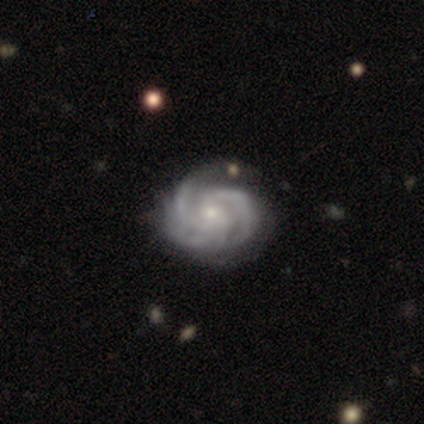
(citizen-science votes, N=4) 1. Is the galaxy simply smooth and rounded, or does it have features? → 50% featured or disk (tied), 50% star or artifact (tied), 0% smooth.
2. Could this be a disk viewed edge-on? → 100% no, 0% yes.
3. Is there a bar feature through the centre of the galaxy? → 50% weak (tied), 50% no (tied), 0% strong.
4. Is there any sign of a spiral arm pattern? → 100% yes, 0% no.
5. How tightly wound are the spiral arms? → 100% tight, 0% medium, 0% loose.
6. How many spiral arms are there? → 100% 2, 0% 1, 0% 3, 0% 4, 0% more than 4, 0% can't tell.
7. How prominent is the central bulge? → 100% small, 0% dominant, 0% large, 0% moderate, 0% none.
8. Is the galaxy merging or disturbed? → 100% none, 0% minor disturbance, 0% major disturbance, 0% merger.